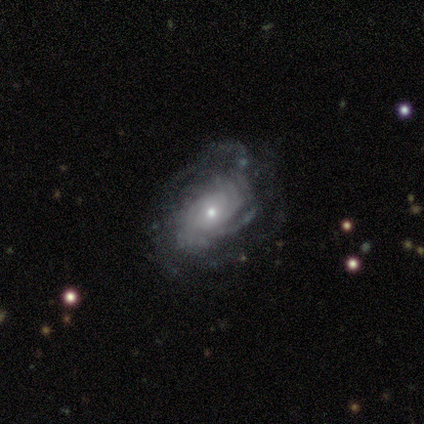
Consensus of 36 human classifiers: This appears to be a featured or disk galaxy (89%) with no bar (77%), tight (67%) spiral arms (87%) and a small central bulge (81%). Merging: none (70%).